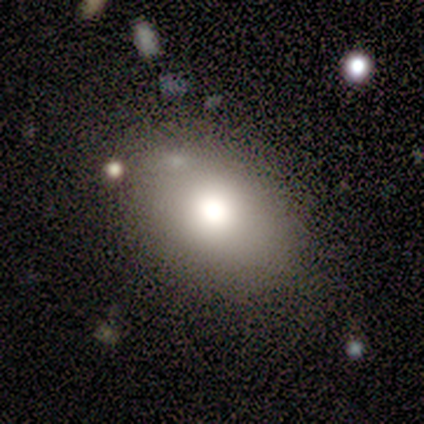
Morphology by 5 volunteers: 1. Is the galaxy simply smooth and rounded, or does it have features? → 100% smooth, 0% featured or disk, 0% star or artifact.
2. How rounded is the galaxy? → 100% in between, 0% round, 0% cigar-shaped.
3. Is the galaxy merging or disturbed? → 80% none, 20% minor disturbance, 0% major disturbance, 0% merger.